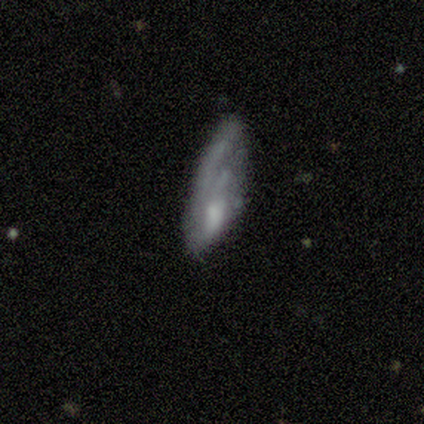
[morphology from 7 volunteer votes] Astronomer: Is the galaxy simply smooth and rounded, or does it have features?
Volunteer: smooth — 71%.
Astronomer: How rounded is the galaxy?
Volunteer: in between — 80%.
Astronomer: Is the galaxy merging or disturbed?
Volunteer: none — 43%, tied with major disturbance at 43%.